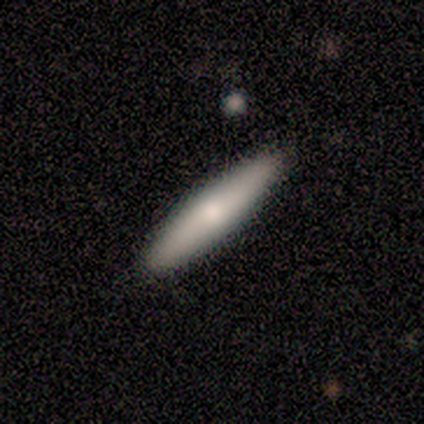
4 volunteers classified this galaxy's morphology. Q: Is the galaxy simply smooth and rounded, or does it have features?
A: smooth — 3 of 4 (75%).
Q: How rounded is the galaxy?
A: cigar-shaped — 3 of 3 (100%).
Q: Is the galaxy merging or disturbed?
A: none — 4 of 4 (100%).